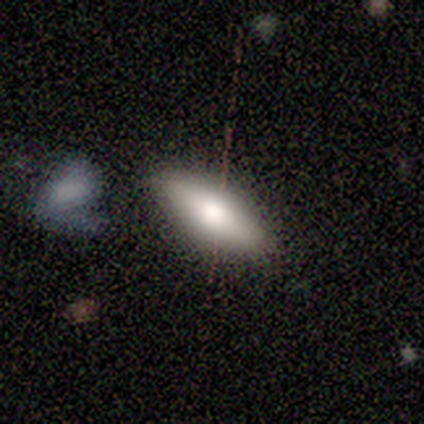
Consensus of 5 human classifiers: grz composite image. It shows a smooth galaxy with no disk features (80%) that is in between round and cigar-shaped (100%). Merging: none (100%).